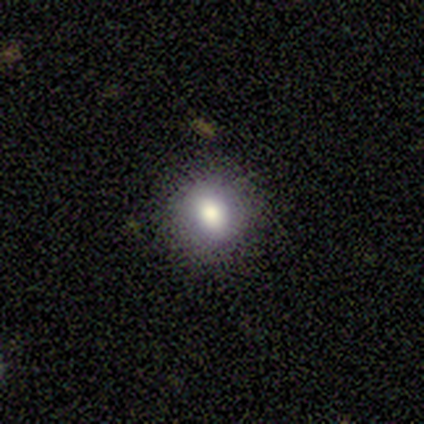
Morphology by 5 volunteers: Smooth or featured: smooth — 80% (star or artifact — 20%)
How rounded: round — 100%
Merging: none — 100%